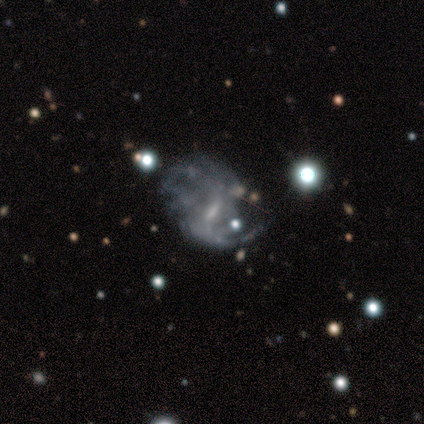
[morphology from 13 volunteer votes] smooth-or-featured: featured or disk: 85% | smooth: 8% | star or artifact: 8%
  disk-edge-on: no: 100% | yes: 0%
    bar: weak: 73% | strong: 27% | no: 0%
    has-spiral-arms: yes: 100% | no: 0%
      spiral-winding: medium: 55% | loose: 45% | tight: 0%
      spiral-arm-count: 2: 73% | can't tell: 18% | 1: 9% | 3: 0% | 4: 0% | more than 4: 0%
    bulge-size: small: 45% | moderate: 27% | none: 27% | dominant: 0% | large: 0%
  merging: none: 42% | minor disturbance: 25% | major disturbance: 25% | merger: 8%